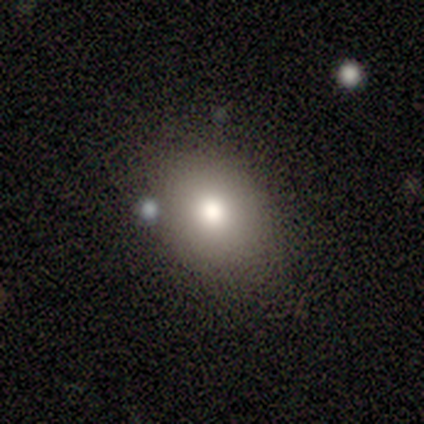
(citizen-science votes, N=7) smooth-or-featured: smooth: 86% | star or artifact: 14% | featured or disk: 0%
  how-rounded: round: 83% | in between: 17% | cigar-shaped: 0%
  merging: none: 67% | minor disturbance: 33% | major disturbance: 0% | merger: 0%